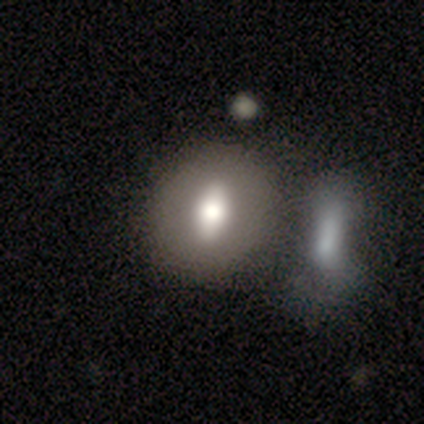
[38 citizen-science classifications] smooth_or_featured: smooth (p=0.63) [alt: featured or disk p=0.34]
how_rounded: in between (p=0.58) [alt: round p=0.33]
merging: merger (p=0.59) [alt: none p=0.35]